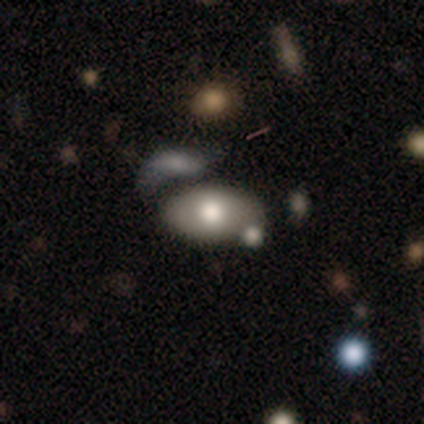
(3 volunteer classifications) smooth_or_featured: smooth (p=0.67) [alt: featured or disk p=0.33]
how_rounded: in between (p=1.00)
merging: none (p=0.67) [alt: minor disturbance p=0.33]